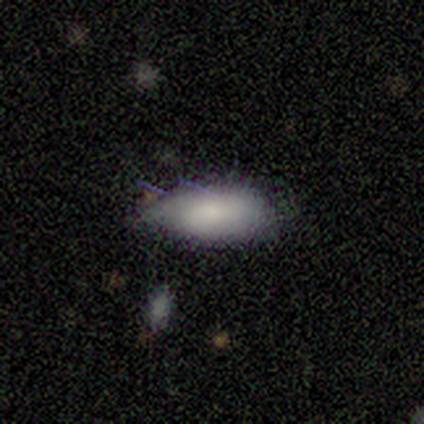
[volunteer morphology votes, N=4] smooth 75%, featured or disk 25%, star or artifact 0%. Down the decision tree: how rounded — in between (100%); merging — none (50%, tied with minor disturbance).